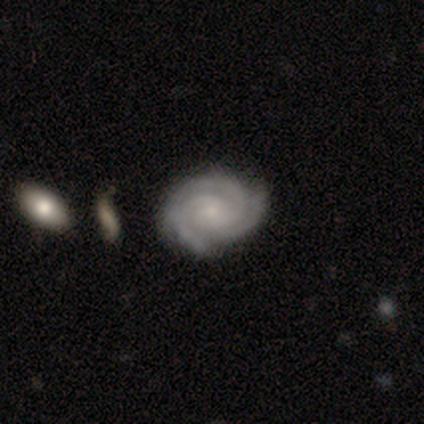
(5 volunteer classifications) Morphology: type=featured or disk (100%); edge-on=no (100%); bar=no (80%); spiral arms=yes (100%); winding=tight (80%); arm count=3 (60%); bulge=small (80%); merging=none (60%).